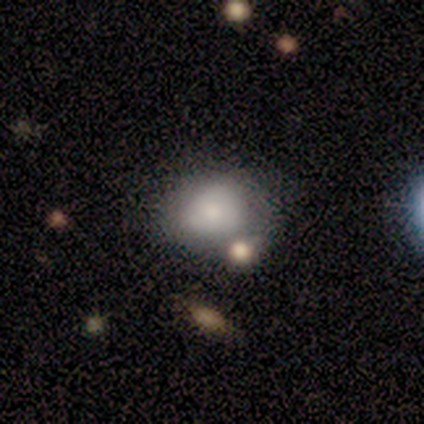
Smooth or featured?
  - smooth: 63% *
  - featured or disk: 24%
  - star or artifact: 13%
How rounded?
  - round: 50% * (tied)
  - in between: 50% * (tied)
  - cigar-shaped: 0%
Merging?
  - none: 61% *
  - minor disturbance: 24%
  - merger: 15%
  - major disturbance: 0%